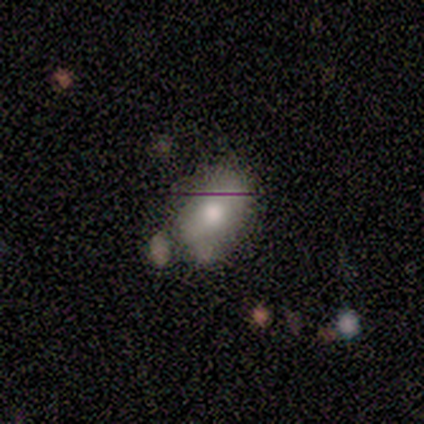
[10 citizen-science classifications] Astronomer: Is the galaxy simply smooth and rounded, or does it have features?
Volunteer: smooth — 80%.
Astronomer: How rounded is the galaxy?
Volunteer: in between — 88%.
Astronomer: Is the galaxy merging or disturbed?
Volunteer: none — 50%.